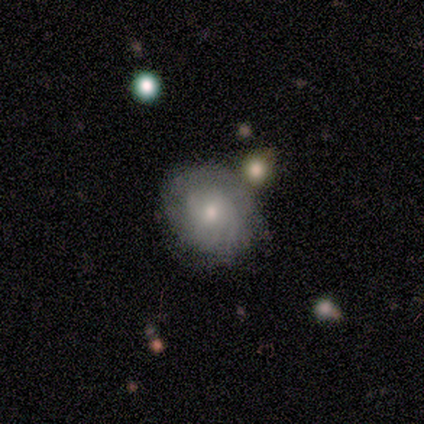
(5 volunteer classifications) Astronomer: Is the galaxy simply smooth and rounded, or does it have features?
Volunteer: smooth — 80%.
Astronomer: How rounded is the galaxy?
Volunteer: round — 100%.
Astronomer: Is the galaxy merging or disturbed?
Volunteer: none — 100%.